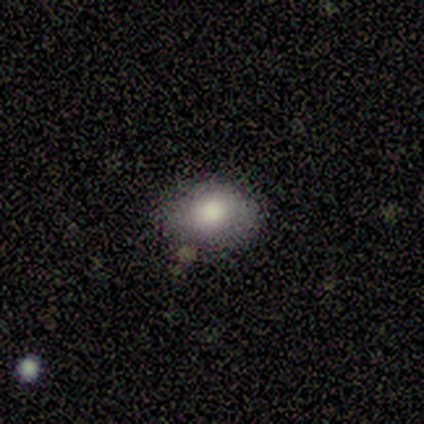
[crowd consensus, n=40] Q: Smooth or featured?
A: smooth (70%); runner-up: featured or disk (20%)
Q: How rounded?
A: in between (68%); runner-up: round (32%)
Q: Merging?
A: none (72%); runner-up: minor disturbance (19%)